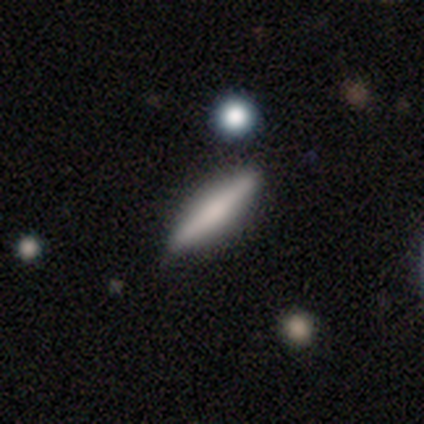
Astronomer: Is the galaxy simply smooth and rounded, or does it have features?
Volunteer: smooth — 51% (runner-up: featured or disk, 38%).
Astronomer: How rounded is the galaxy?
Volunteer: cigar-shaped — 95%.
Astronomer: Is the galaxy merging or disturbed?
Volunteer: none — 97%.